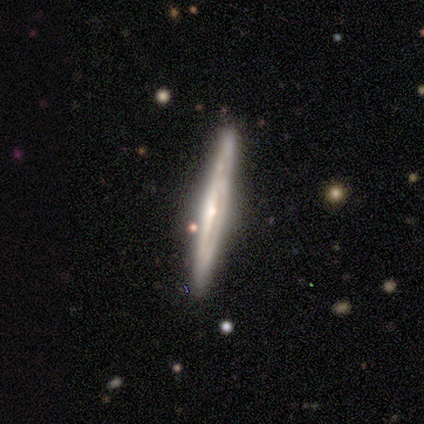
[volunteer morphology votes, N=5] This is likely a featured or disk galaxy (60%). It is clearly viewed edge-on (100%). Edge-on bulge: marginally boxy (33%, tied with none and rounded). Merging: clearly none (100%).